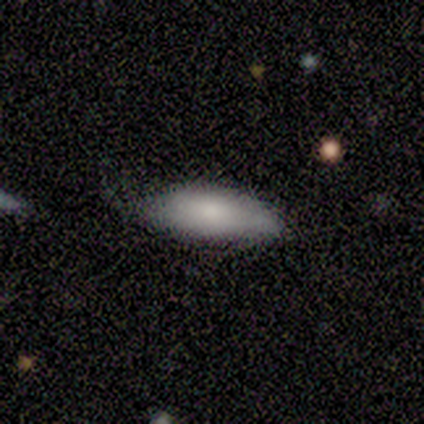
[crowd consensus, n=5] This appears to be a smooth galaxy with no disk features (60%) that is in between round and cigar-shaped (100%). Merging: none (60%).